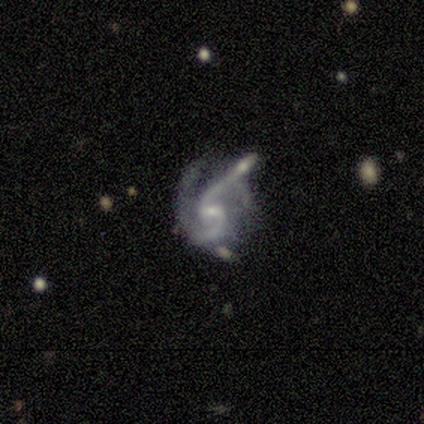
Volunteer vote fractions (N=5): Overall: featured or disk (100%). Edge-on disk: no (100%). Bar: no (60%; weak 40%). Spiral arms: yes (100%). Spiral arm count: 2 (100%). Spiral winding: medium (40%, tied with loose). Bulge size: small (60%; moderate 40%). Merging: merger (60%; minor disturbance 20%).